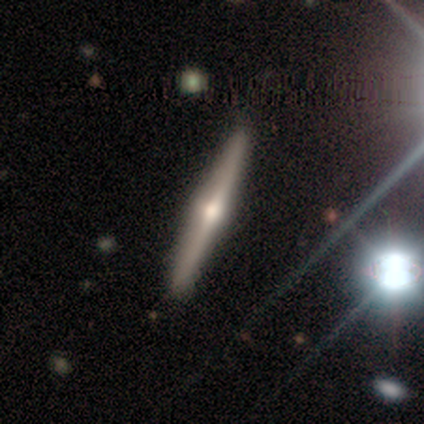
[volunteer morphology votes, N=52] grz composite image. It shows a featured or disk galaxy (77%) viewed edge-on (98%) with a rounded central bulge (95%). Merging: none (90%).